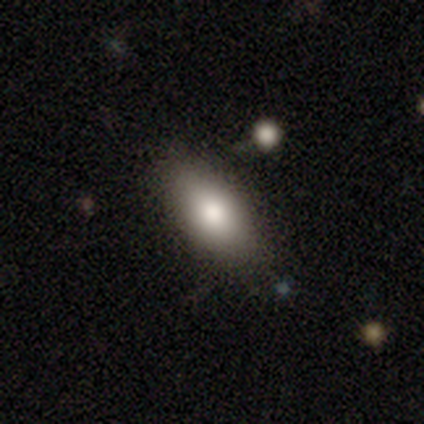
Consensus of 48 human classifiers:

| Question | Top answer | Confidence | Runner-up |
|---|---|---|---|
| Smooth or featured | smooth | 81% | featured or disk (10%) |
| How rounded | in between | 82% | round (10%) |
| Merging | none | 75% | minor disturbance (23%) |